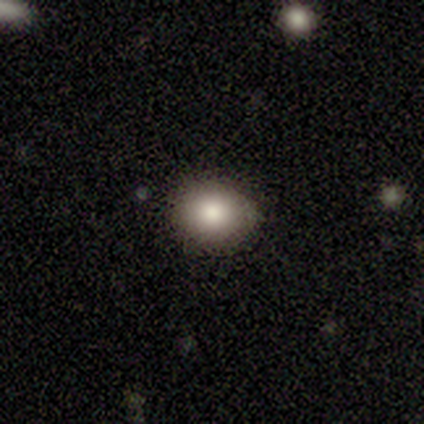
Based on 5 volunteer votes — This appears to be a smooth galaxy with no disk features (80%) that is round (75%). Merging: none (60%).